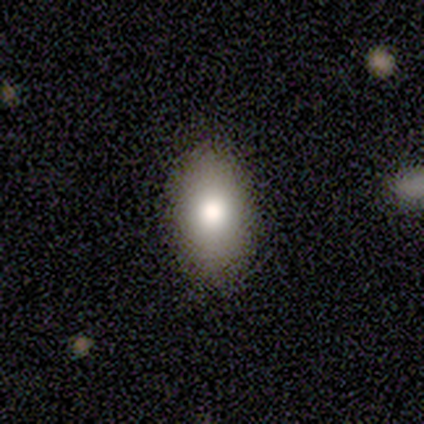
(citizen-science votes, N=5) Q: Smooth or featured?
A: smooth (80%); runner-up: featured or disk (20%)
Q: How rounded?
A: in between (75%); runner-up: round (25%)
Q: Merging?
A: none (80%); runner-up: minor disturbance (20%)